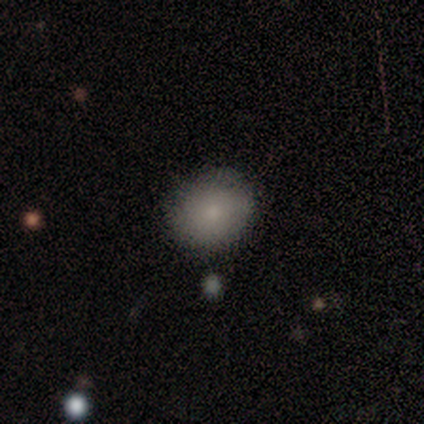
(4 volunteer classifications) Q: Smooth or featured?
A: smooth (100%)
Q: How rounded?
A: round (75%); runner-up: in between (25%)
Q: Merging?
A: none (75%); runner-up: minor disturbance (25%)